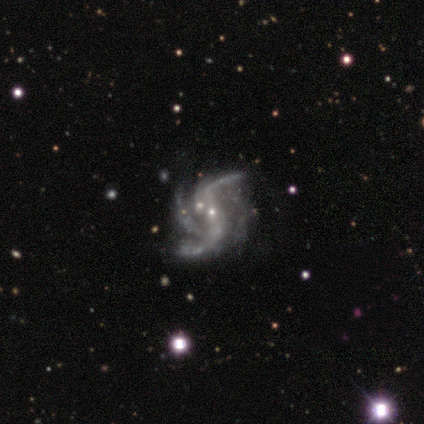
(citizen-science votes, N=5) This appears to be a featured or disk galaxy (100%) with a weak bar (60%), 3 (60%) loose (60%) spiral arms (100%) and a small central bulge (100%). Merging: none (80%).